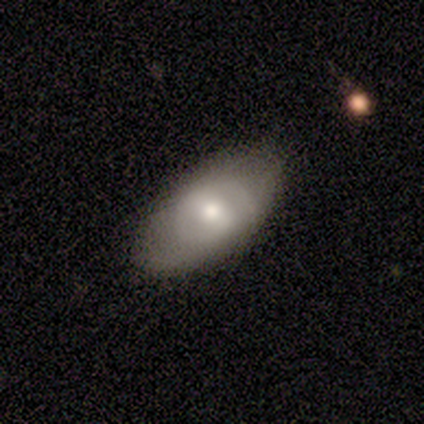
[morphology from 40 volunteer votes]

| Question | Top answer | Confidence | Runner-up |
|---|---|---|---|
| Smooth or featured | smooth | 48% | featured or disk (42%) |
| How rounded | in between | 89% | cigar-shaped (11%) |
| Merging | none | 72% | minor disturbance (28%) |